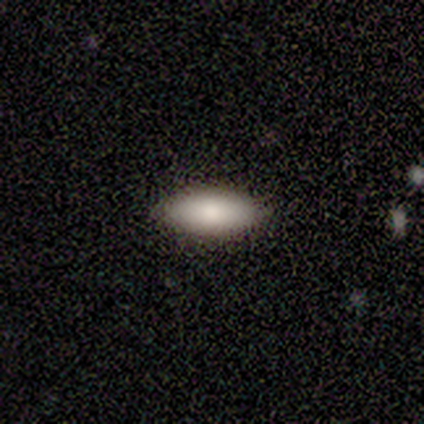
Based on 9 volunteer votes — smooth 100%, featured or disk 0%, star or artifact 0%. Down the decision tree: how rounded — in between (89%); merging — none (100%).